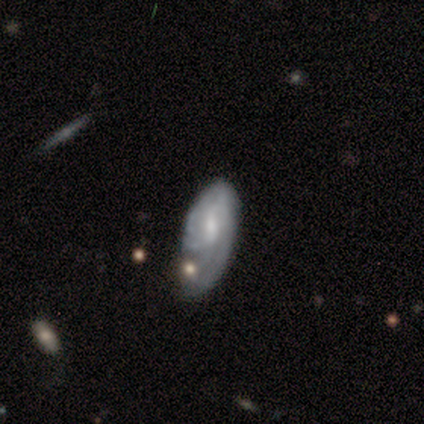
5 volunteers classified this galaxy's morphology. Q: Smooth or featured?
A: featured or disk (60%); runner-up: smooth (40%)
Q: Edge-on disk?
A: no (100%)
Q: Bar?
A: no (67%); runner-up: weak (33%)
Q: Spiral arms?
A: yes (100%)
Q: Spiral winding?
A: tight (33%); tied with: medium (33%); loose (33%)
Q: Spiral arm count?
A: can't tell (67%); runner-up: 2 (33%)
Q: Bulge size?
A: small (67%); runner-up: none (33%)
Q: Merging?
A: none (40%); runner-up: minor disturbance (20%)